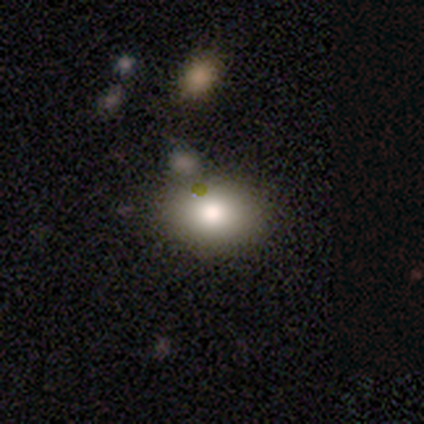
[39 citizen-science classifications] Morphology: type=smooth (69%); roundness=in between (81%); merging=none (51%).